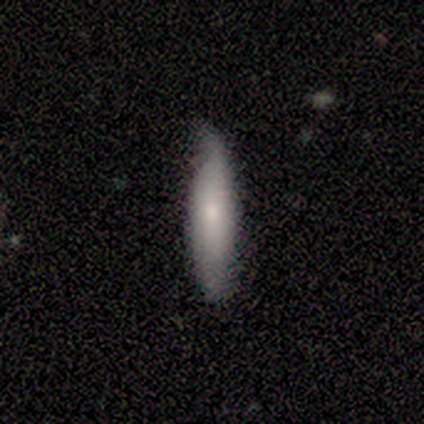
smooth 100%, featured or disk 0%, star or artifact 0%. Down the decision tree: how rounded — in between (50%, tied with cigar-shaped); merging — none (50%, tied with minor disturbance).